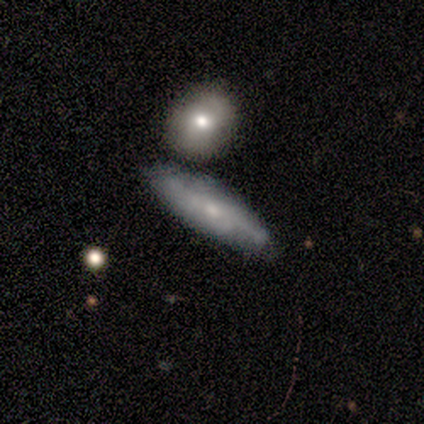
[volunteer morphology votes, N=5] Smooth or featured? featured or disk (60%)
Edge-on disk? no (100%)
Bar? weak (100%)
Spiral arms? yes (67%)
Spiral winding? medium (100%)
Spiral arm count? can't tell (100%)
Bulge size? small (67%)
Merging? none (60%)